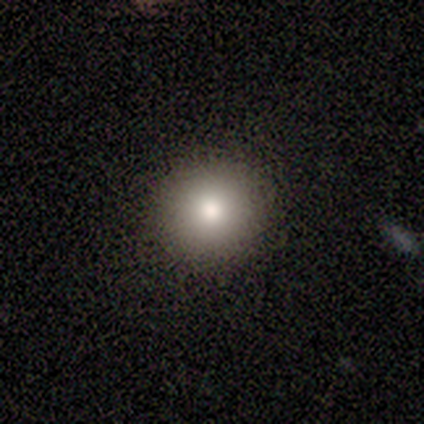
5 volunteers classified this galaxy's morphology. Smooth or featured? 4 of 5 (80%) said smooth. How rounded? 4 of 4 (100%) said round. Merging? 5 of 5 (100%) said none.